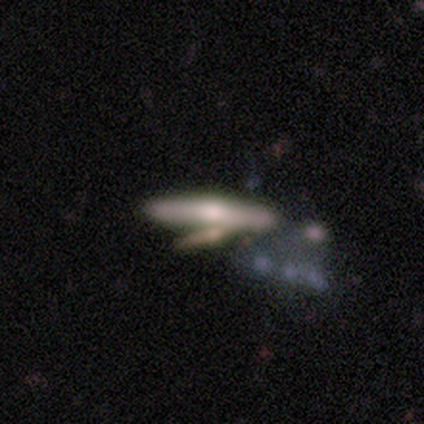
This appears to be a featured or disk galaxy (60%) with no bar (100%), loose (100%) spiral arms (50%, tied with no) and a moderate central bulge (50%, tied with small). Merging: merger (60%).